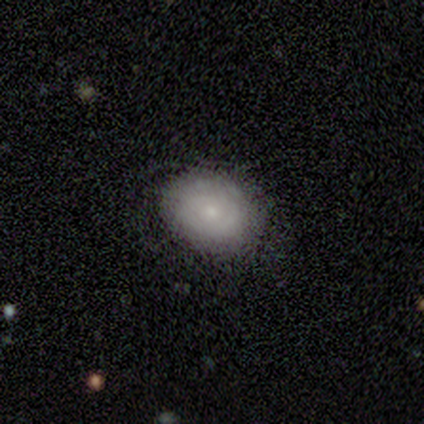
A featured or disk galaxy (60%) with no bar (100%), no spiral arms (100%) and a small central bulge (67%).

Vote fractions:
- Smooth or featured? featured or disk: 60% / smooth: 40% / star or artifact: 0%
- Edge-on disk? no: 100% / yes: 0%
- Bar? no: 100% / strong: 0% / weak: 0%
- Spiral arms? no: 100% / yes: 0%
- Bulge size? small: 67% / none: 33% / dominant: 0% / large: 0% / moderate: 0%
- Merging? none: 80% / minor disturbance: 20% / major disturbance: 0% / merger: 0%